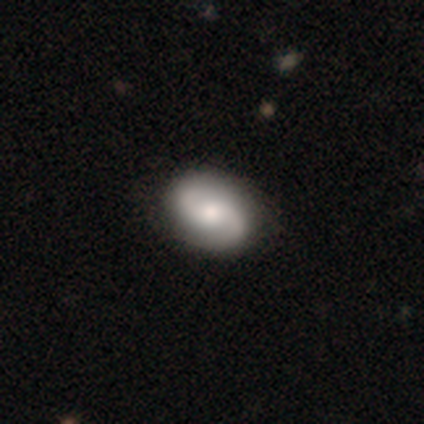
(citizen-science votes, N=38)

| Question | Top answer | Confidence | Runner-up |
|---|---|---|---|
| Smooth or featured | featured or disk | 76% | smooth (24%) |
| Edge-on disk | no | 97% | yes (3%) |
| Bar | no | 79% | weak (21%) |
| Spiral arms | yes | 96% | no (4%) |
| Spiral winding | medium | 56% | loose (30%) |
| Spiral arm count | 2 | 96% | 1 (4%) |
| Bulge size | moderate | 68% | large (18%) |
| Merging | none | 50% | minor disturbance (3%) |